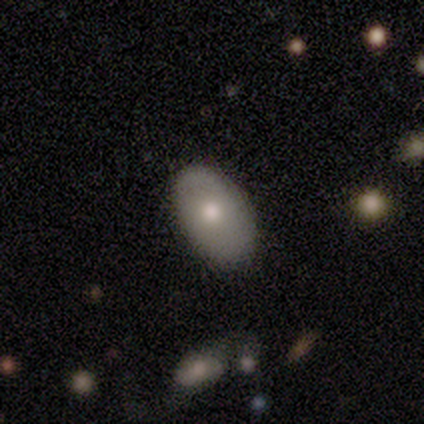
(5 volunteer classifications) Volunteers were most divided on "smooth or featured": smooth: 60%, featured or disk: 40%, star or artifact: 0%. More confident: how rounded — in between (100%); merging — none (100%).